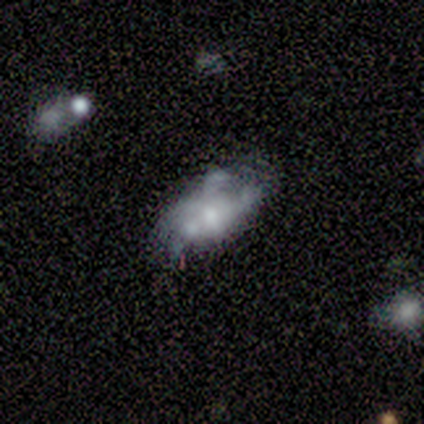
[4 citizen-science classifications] A featured or disk galaxy (75%) with a weak bar (50%, tied with no), no spiral arms (100%) and a moderate central bulge (50%, tied with small).

Vote fractions:
- Smooth or featured? featured or disk: 75% / smooth: 25% / star or artifact: 0%
- Edge-on disk? no: 67% / yes: 33%
- Bar? weak: 50% (tied) / no: 50% (tied) / strong: 0%
- Spiral arms? no: 100% / yes: 0%
- Bulge size? moderate: 50% (tied) / small: 50% (tied) / dominant: 0% / large: 0% / none: 0%
- Merging? minor disturbance: 50% / none: 25% / major disturbance: 25% / merger: 0%